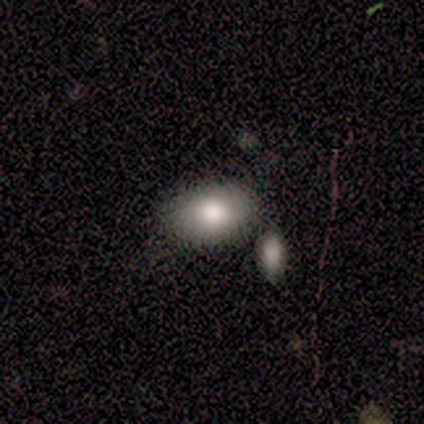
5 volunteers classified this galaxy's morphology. Smooth or featured? 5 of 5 (100%) said smooth. How rounded? 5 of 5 (100%) said in between. Merging? 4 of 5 (80%) said none.